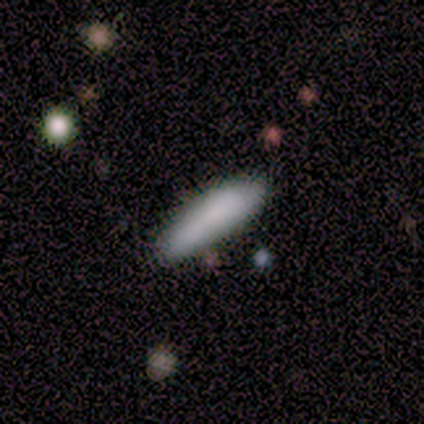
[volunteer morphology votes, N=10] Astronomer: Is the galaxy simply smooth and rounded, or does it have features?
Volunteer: smooth — 90%.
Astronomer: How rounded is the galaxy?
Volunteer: cigar-shaped — 100%.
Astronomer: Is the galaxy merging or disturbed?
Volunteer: none — 78%.